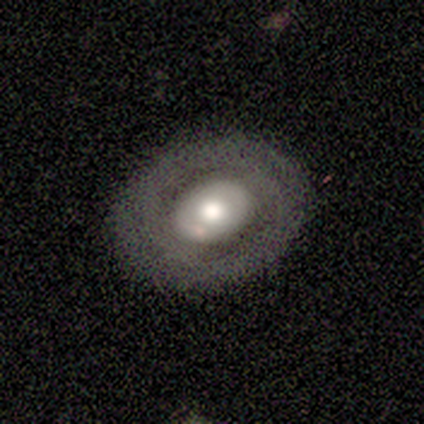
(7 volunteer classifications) Smooth or featured: smooth — 57% (featured or disk — 43%)
How rounded: in between — 75% (round — 25%)
Merging: none — 86% (minor disturbance — 14%)